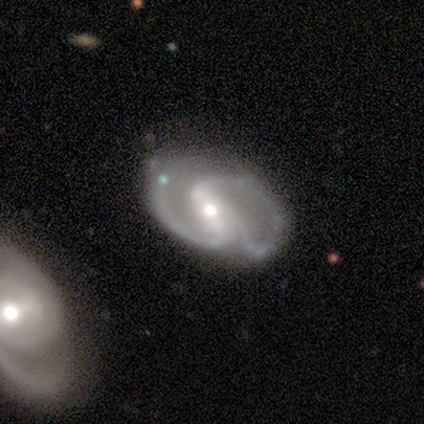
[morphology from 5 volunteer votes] smooth-or-featured: featured or disk: 80% | smooth: 20% | star or artifact: 0%
  disk-edge-on: no: 100% | yes: 0%
    bar: strong: 50% | weak: 25% | no: 25%
    has-spiral-arms: yes: 100% | no: 0%
      spiral-winding: medium: 75% | loose: 25% | tight: 0%
      spiral-arm-count: 2: 75% | 3: 25% | 1: 0% | 4: 0% | more than 4: 0% | can't tell: 0%
    bulge-size: moderate: 75% | small: 25% | dominant: 0% | large: 0% | none: 0%
  merging: none: 60% | major disturbance: 20% | merger: 20% | minor disturbance: 0%